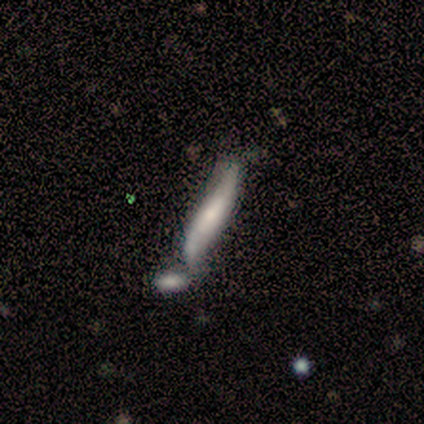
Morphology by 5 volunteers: This appears to be a smooth galaxy with no disk features (80%) that is cigar-shaped (100%). Merging: merger (60%).